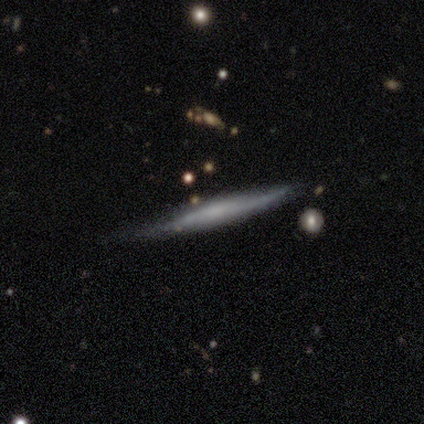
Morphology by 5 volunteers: Q: Smooth or featured?
A: smooth (60%); runner-up: featured or disk (40%)
Q: How rounded?
A: cigar-shaped (100%)
Q: Merging?
A: none (60%); runner-up: minor disturbance (40%)